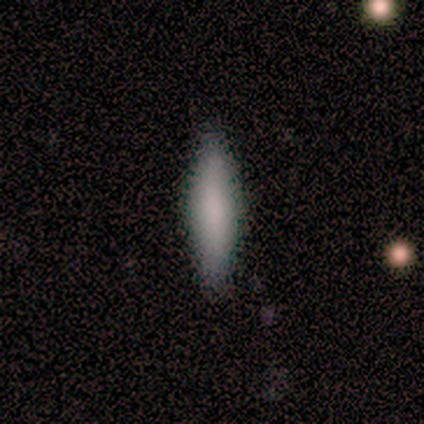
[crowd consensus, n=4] This is possibly a smooth galaxy (50%). How rounded: possibly in between (50%, tied with cigar-shaped). Merging: clearly none (100%).